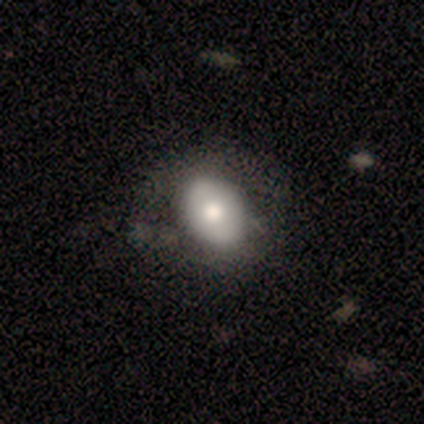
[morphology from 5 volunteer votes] This is clearly a smooth galaxy (80%). How rounded: likely in between (75%). Merging: clearly none (100%).